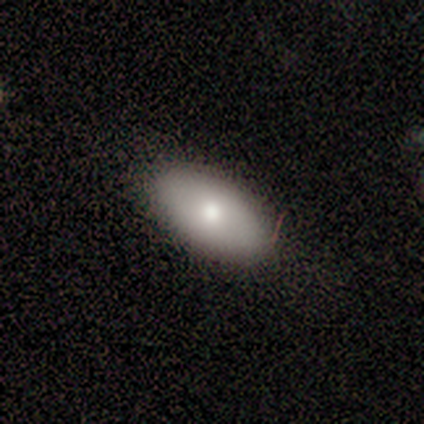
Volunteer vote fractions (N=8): This appears to be a smooth galaxy with no disk features (88%) that is in between round and cigar-shaped (86%). Merging: none (75%).